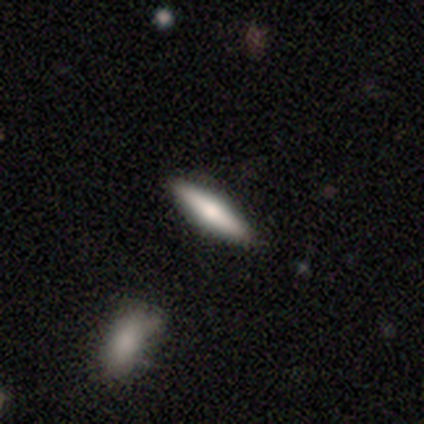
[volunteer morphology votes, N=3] Smooth or featured? featured or disk (67%)
Edge-on disk? yes (100%)
Edge-on bulge? boxy (50%, tied with rounded)
Merging? none (100%)